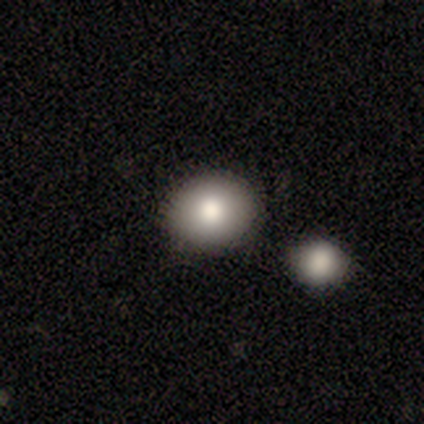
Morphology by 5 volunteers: Smooth or featured: smooth — 80% (star or artifact — 20%)
How rounded: in between — 75% (round — 25%)
Merging: none — 50% (minor disturbance — 25%)